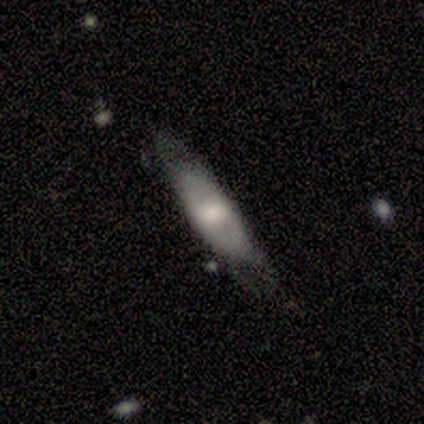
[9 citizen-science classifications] This appears to be a featured or disk galaxy (67%) with no bar (75%), no spiral arms (100%) and a large central bulge (75%). Merging: none (78%).